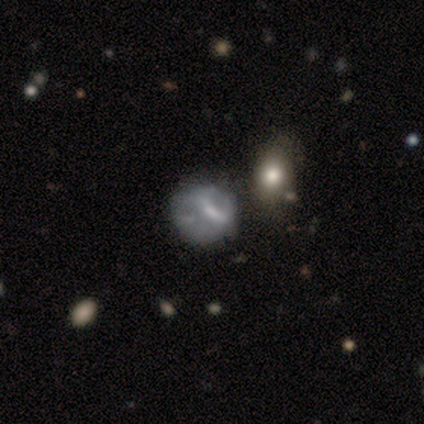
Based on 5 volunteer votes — A smooth galaxy with no disk features (40%, tied with featured or disk) that is round (50%, tied with in between). Merging: none (75%).